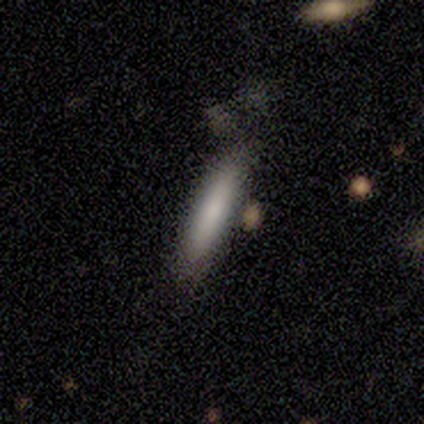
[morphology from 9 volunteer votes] Overall: smooth (89%). How rounded: cigar-shaped (100%). Merging: none (67%; minor disturbance 33%).